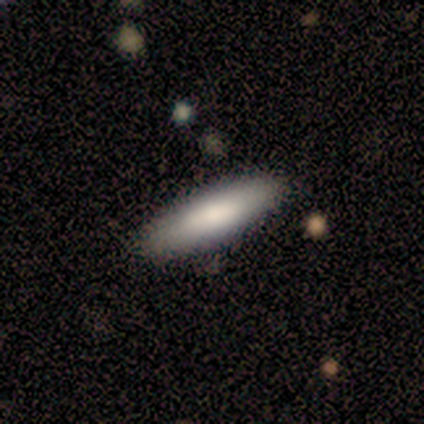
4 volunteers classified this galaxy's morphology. smooth 100%, featured or disk 0%, star or artifact 0%. Down the decision tree: how rounded — cigar-shaped (100%); merging — none (100%).